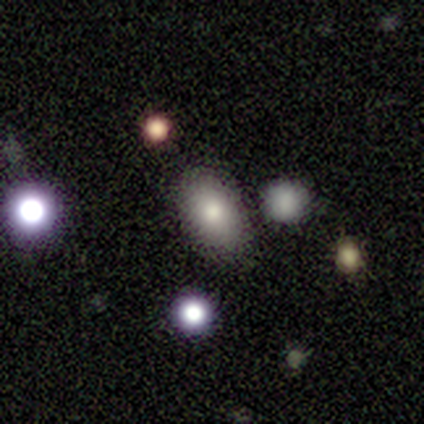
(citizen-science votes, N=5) Morphology: type=smooth (60%); roundness=in between (100%); merging=none (75%).